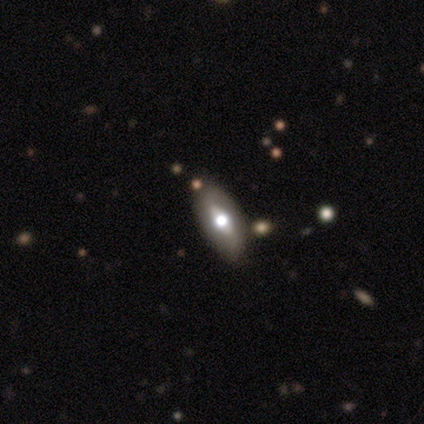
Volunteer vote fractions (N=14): Smooth or featured? 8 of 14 (57%) said smooth. How rounded? 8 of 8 (100%) said in between. Merging? 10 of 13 (77%) said none.